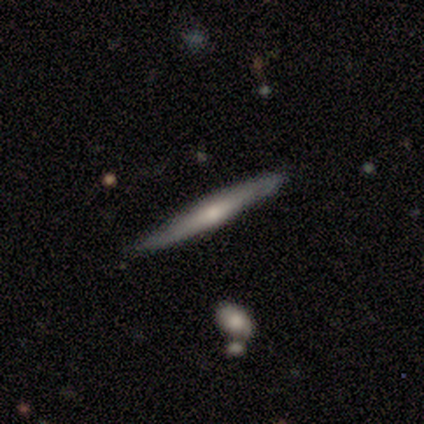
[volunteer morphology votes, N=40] smooth_or_featured: smooth (p=0.47) [alt: featured or disk p=0.42]
how_rounded: cigar-shaped (p=0.95) [alt: in between p=0.05]
merging: none (p=0.89) [alt: minor disturbance p=0.11]